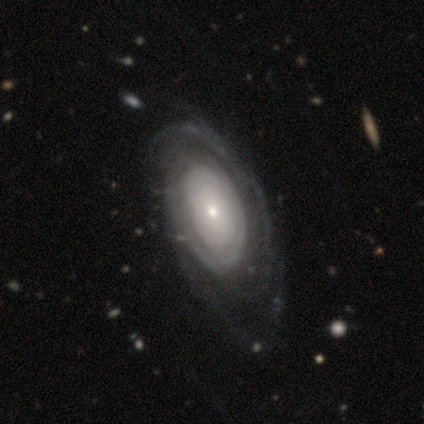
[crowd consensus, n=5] Smooth or featured? featured or disk (80%)
Edge-on disk? no (100%)
Bar? no (100%)
Spiral arms? yes (100%)
Spiral winding? tight (75%)
Spiral arm count? can't tell (50%)
Bulge size? moderate (75%)
Merging? none (80%)